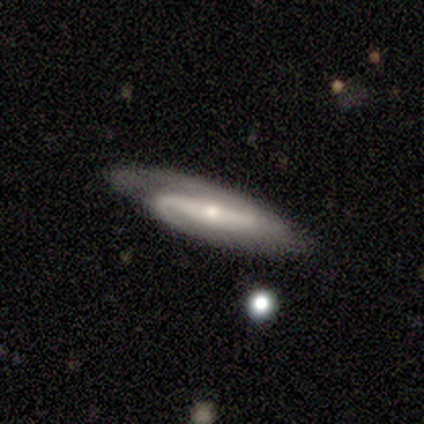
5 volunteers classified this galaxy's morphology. featured or disk 80%, smooth 20%, star or artifact 0%. Down the decision tree: edge-on disk — no (100%); bar — strong (50%, tied with weak); spiral arms — yes (100%); spiral arm count — 2 (100%); spiral winding — medium (50%, tied with loose); bulge size — small (75%); merging — none (80%).